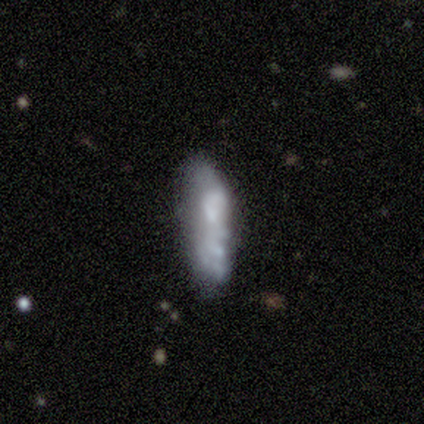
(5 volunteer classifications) Overall: featured or disk (60%; smooth 40%). Edge-on disk: no (100%). Bar: no (100%). Spiral arms: no (67%; yes 33%). Bulge size: none (67%; small 33%). Merging: none (60%; major disturbance 20%).